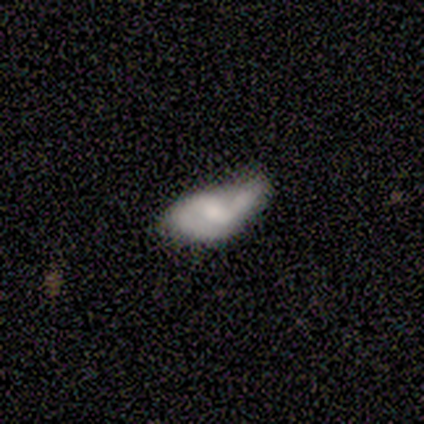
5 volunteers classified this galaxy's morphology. This is likely a smooth galaxy (60%). How rounded: clearly in between (100%). Merging: likely minor disturbance (60%).